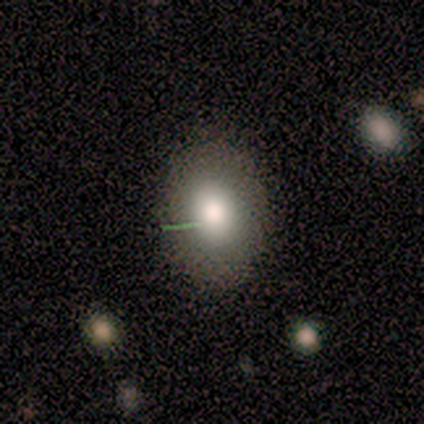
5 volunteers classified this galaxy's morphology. Overall: smooth (60%; star or artifact 40%). How rounded: in between (100%). Merging: none (100%).